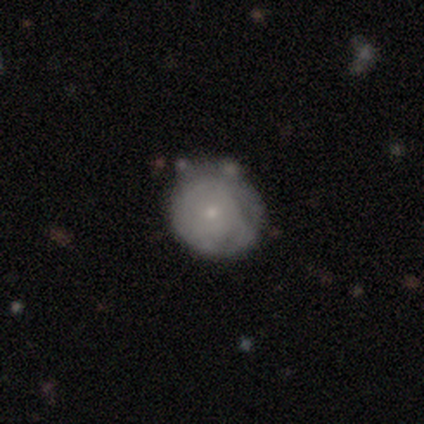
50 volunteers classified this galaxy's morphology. Q: Smooth or featured?
A: smooth (54%); runner-up: featured or disk (38%)
Q: How rounded?
A: round (89%); runner-up: in between (11%)
Q: Merging?
A: none (76%); runner-up: minor disturbance (15%)